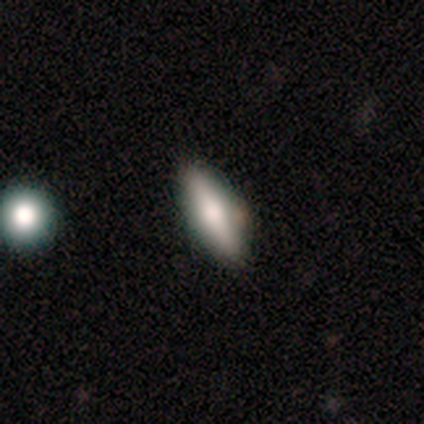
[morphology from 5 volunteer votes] This appears to be a smooth galaxy with no disk features (60%) that is in between round and cigar-shaped (67%). Merging: none (100%).